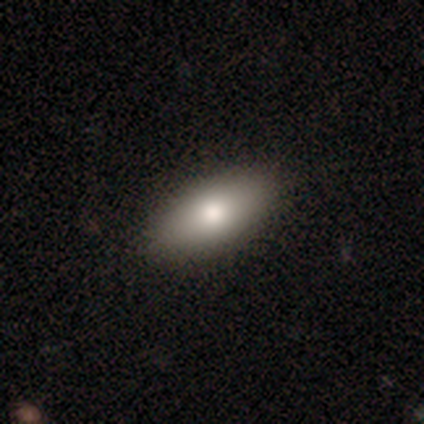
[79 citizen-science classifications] A smooth galaxy with no disk features (75%) that is in between round and cigar-shaped (88%). Merging: none (89%).